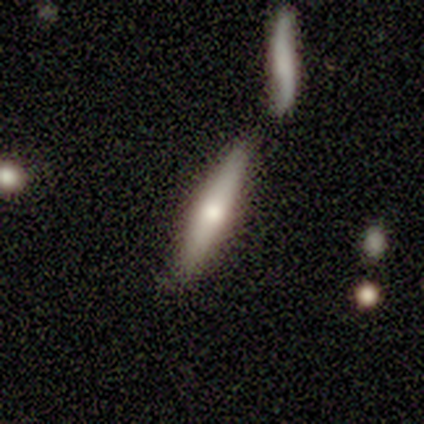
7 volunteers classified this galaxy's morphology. A featured or disk galaxy (57%) viewed edge-on (100%) with a rounded central bulge (75%). Merging: none (57%).